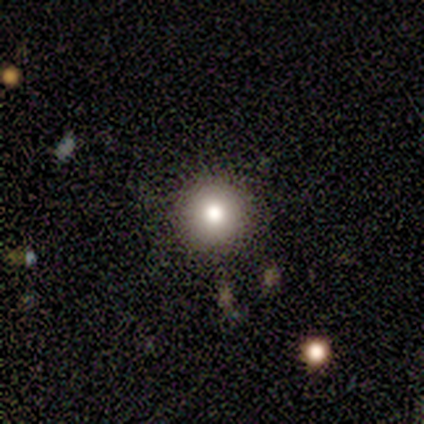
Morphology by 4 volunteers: Overall: smooth (50%; featured or disk 25%). How rounded: round (100%). Merging: none (100%).